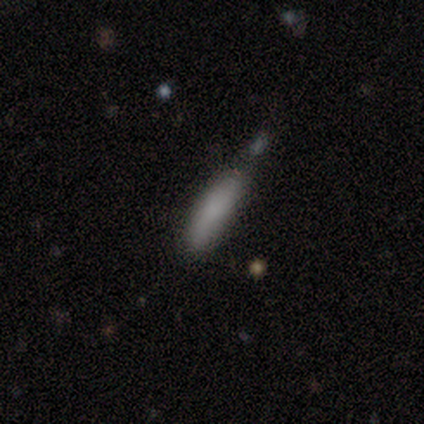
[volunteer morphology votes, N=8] A smooth galaxy with no disk features (88%) that is cigar-shaped (86%). Merging: none (62%).